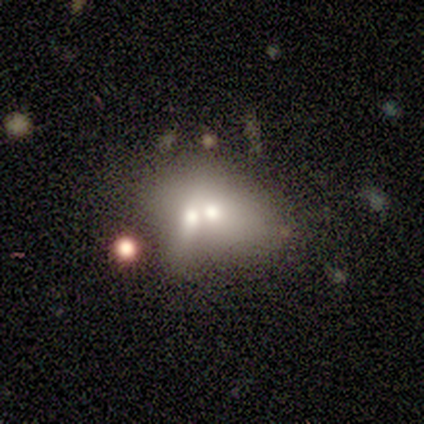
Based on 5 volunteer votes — Morphology: type=featured or disk (60%); edge-on=no (100%); bar=no (67%); spiral arms=no (100%); bulge=small (67%); merging=merger (50%).